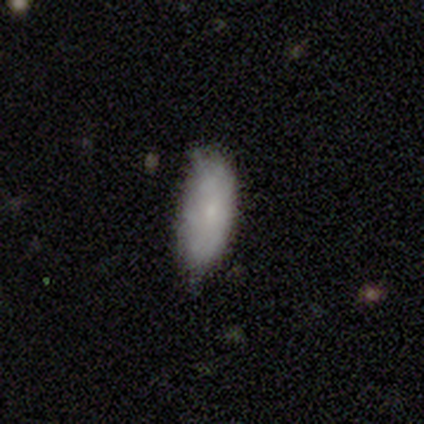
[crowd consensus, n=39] smooth 72%, featured or disk 26%, star or artifact 3%. Down the decision tree: how rounded — in between (89%); merging — none (61%).